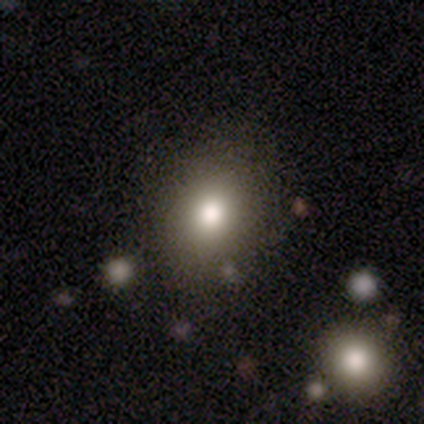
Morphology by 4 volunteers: type=smooth (75%); roundness=round (67%); merging=none (75%).